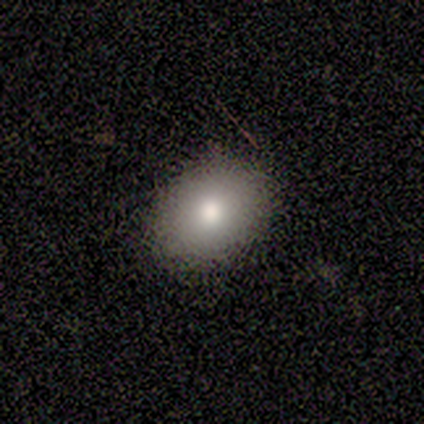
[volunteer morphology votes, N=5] Smooth or featured: smooth — 100%
How rounded: round — 60% (in between — 40%)
Merging: none — 100%